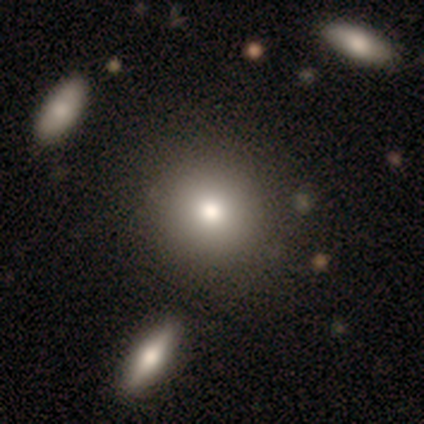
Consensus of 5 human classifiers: Smooth or featured? smooth (80%)
How rounded? round (100%)
Merging? none (80%)